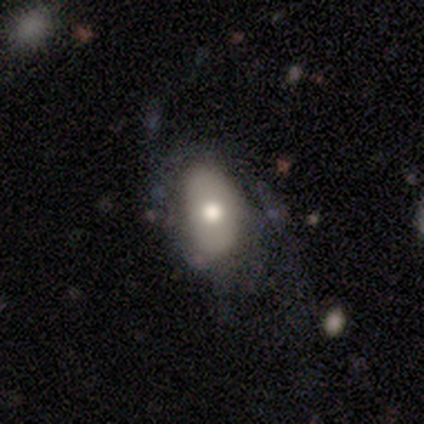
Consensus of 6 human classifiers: smooth 50% (tied), featured or disk 50% (tied), star or artifact 0%. Down the decision tree: how rounded — in between (100%); merging — none (50%).